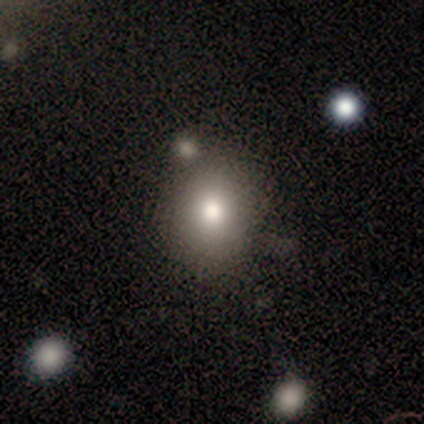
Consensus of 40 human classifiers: Morphology: type=smooth (78%); roundness=round (71%); merging=none (51%).